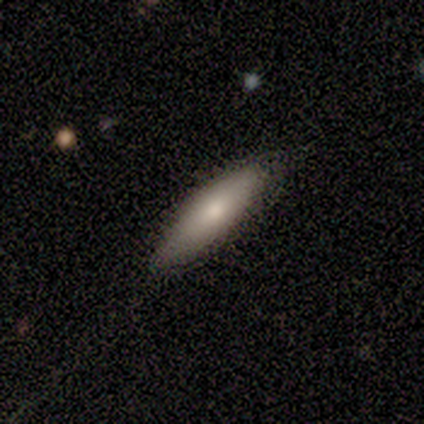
A featured or disk galaxy (67%) viewed edge-on (50%, tied with no) with no central bulge (100%).

Vote fractions:
- Smooth or featured? featured or disk: 67% / smooth: 33% / star or artifact: 0%
- Edge-on disk? yes: 50% (tied) / no: 50% (tied)
- Edge-on bulge? none: 100% / boxy: 0% / rounded: 0%
- Merging? none: 67% / minor disturbance: 33% / major disturbance: 0% / merger: 0%